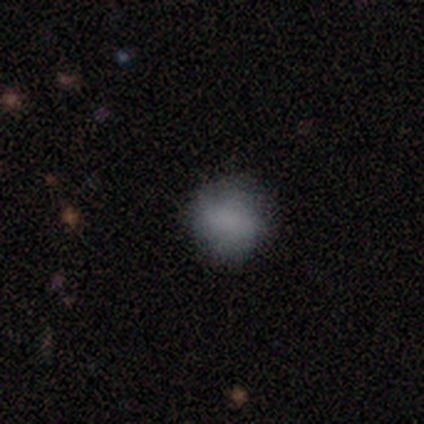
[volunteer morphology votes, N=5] A smooth galaxy with no disk features (60%) that is in between round and cigar-shaped (67%). Merging: minor disturbance (50%).